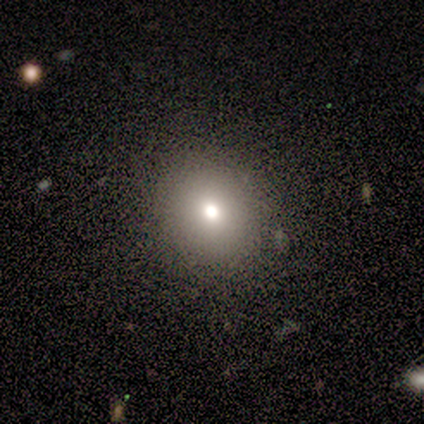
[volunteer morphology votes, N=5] type=smooth (100%); roundness=round (80%); merging=none (100%).